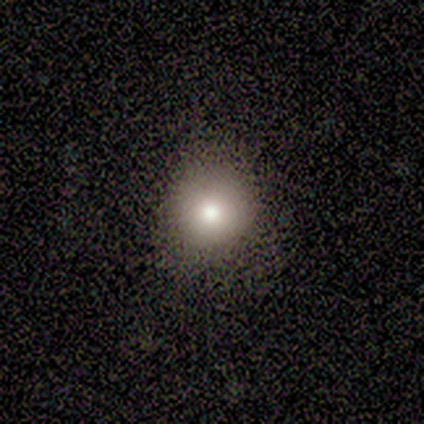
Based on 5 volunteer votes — Q: Smooth or featured?
A: smooth (80%); runner-up: star or artifact (20%)
Q: How rounded?
A: round (75%); runner-up: in between (25%)
Q: Merging?
A: none (50%); tied with: minor disturbance (50%)